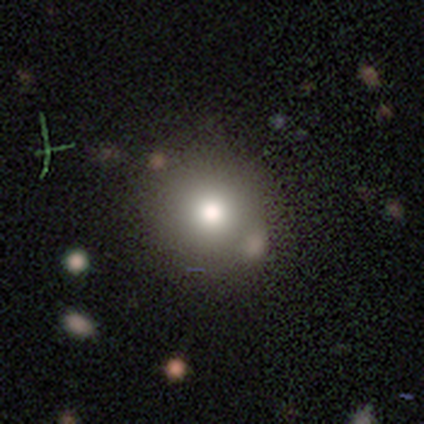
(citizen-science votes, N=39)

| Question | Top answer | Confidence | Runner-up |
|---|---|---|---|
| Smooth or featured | smooth | 85% | featured or disk (10%) |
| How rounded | round | 91% | in between (6%) |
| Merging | none | 38% | merger (19%) |